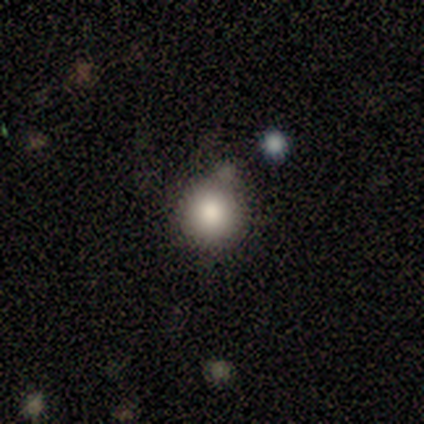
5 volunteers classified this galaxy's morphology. Overall: smooth (100%). How rounded: round (60%; in between 40%). Merging: none (80%).